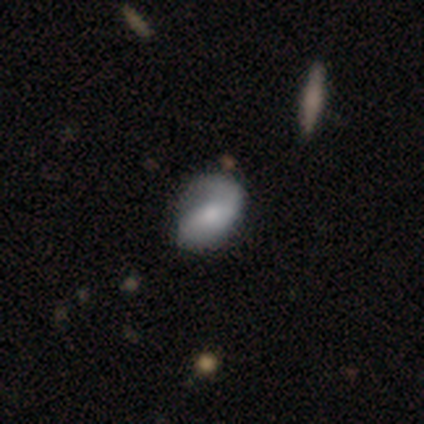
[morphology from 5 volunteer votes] type=featured or disk (60%); edge-on=no (100%); bar=no (67%); spiral arms=yes (100%); winding=medium (67%); arm count=2 (100%); bulge=moderate (100%); merging=none (100%).